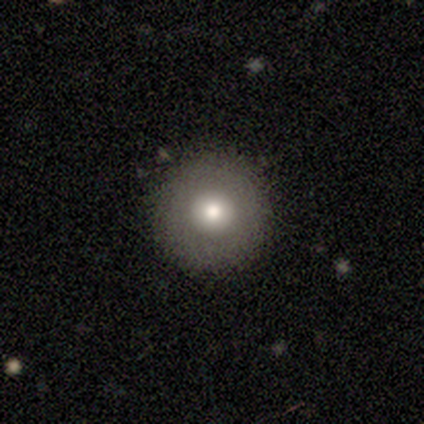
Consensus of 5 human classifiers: A smooth galaxy with no disk features (100%) that is round (100%).

Vote fractions:
- Smooth or featured? smooth: 100% / featured or disk: 0% / star or artifact: 0%
- How rounded? round: 100% / in between: 0% / cigar-shaped: 0%
- Merging? none: 80% / minor disturbance: 20% / major disturbance: 0% / merger: 0%